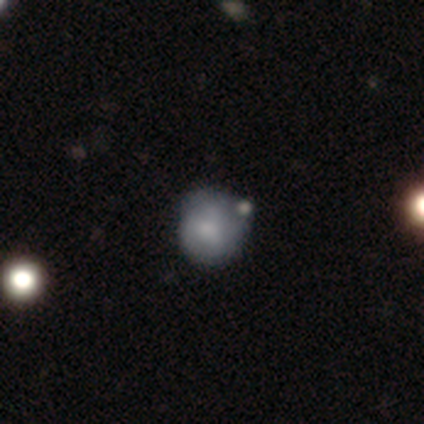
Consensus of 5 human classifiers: smooth-or-featured: smooth: 40% (tied) | featured or disk: 40% (tied) | star or artifact: 20%
  how-rounded: round: 100% | in between: 0% | cigar-shaped: 0%
  merging: none: 75% | merger: 25% | minor disturbance: 0% | major disturbance: 0%